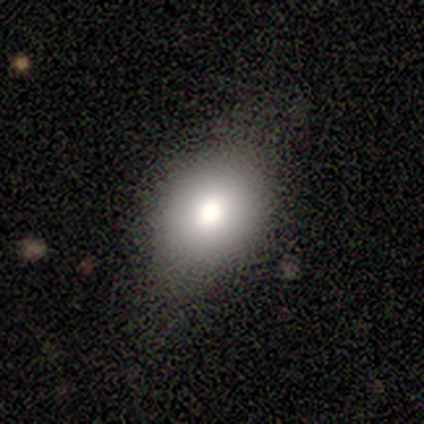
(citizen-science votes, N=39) Morphology: type=smooth (82%); roundness=in between (69%); merging=none (62%).